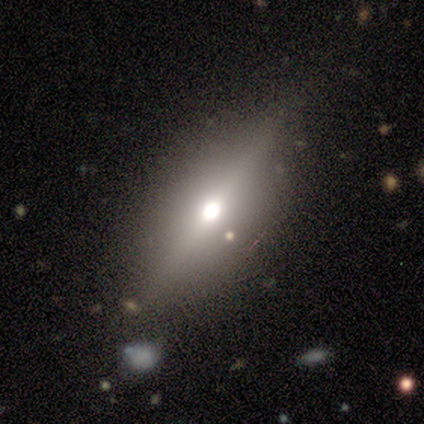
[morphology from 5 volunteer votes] This appears to be a star or artifact, not a galaxy (60%).